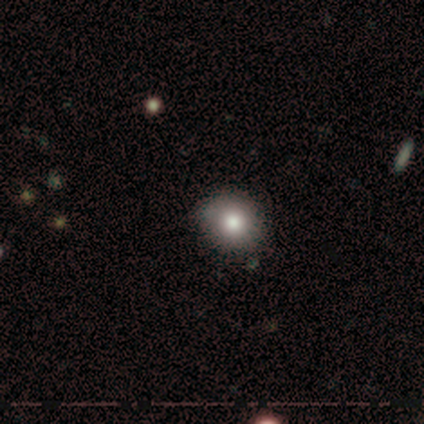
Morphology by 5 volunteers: A smooth galaxy with no disk features (100%) that is round (80%). Merging: none (100%).